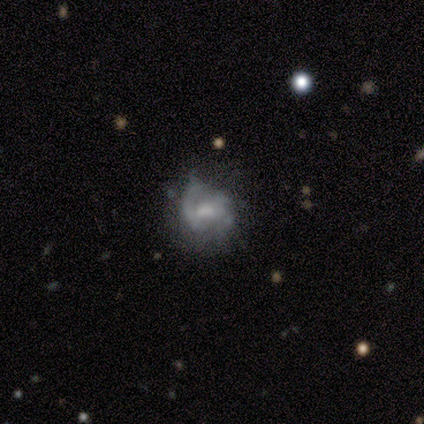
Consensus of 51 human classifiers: featured or disk 65%, smooth 27%, star or artifact 8%. Down the decision tree: edge-on disk — no (97%); bar — weak (56%); spiral arms — yes (66%); spiral arm count — 2 (43%); spiral winding — medium (43%); bulge size — moderate (38%, tied with small); merging — none (45%).